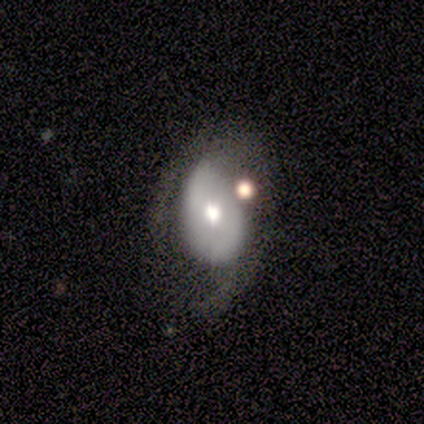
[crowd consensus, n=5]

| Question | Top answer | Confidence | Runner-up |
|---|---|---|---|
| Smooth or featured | smooth | 60% | featured or disk (40%) |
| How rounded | in between | 100% | — |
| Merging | none | 40% | tied: minor disturbance (40%) |